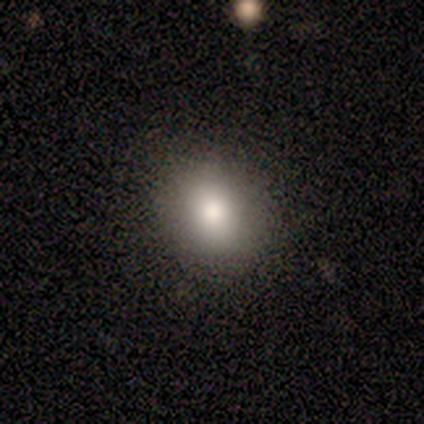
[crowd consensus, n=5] smooth 100%, featured or disk 0%, star or artifact 0%. Down the decision tree: how rounded — round (60%); merging — none (80%).